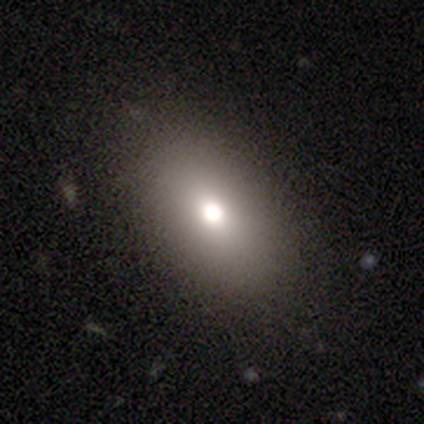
This appears to be a smooth galaxy with no disk features (64%) that is in between round and cigar-shaped (100%). Merging: none (100%).